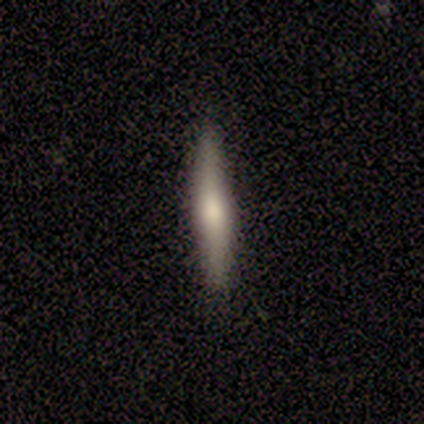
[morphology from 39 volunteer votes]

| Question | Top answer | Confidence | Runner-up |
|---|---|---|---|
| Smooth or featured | smooth | 56% | featured or disk (41%) |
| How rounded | cigar-shaped | 86% | in between (9%) |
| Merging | none | 95% | minor disturbance (3%) |